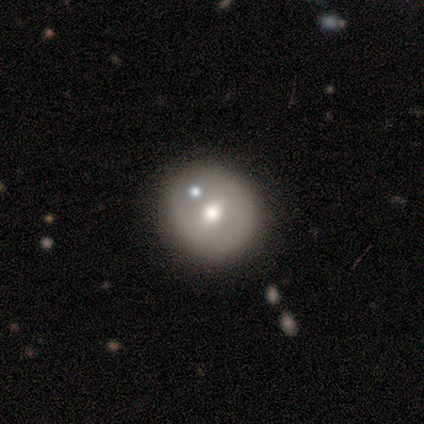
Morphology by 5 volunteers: type=featured or disk (60%); edge-on=no (100%); bar=strong (33%, tied with weak and no); spiral arms=no (67%); bulge=moderate (100%); merging=none (60%).